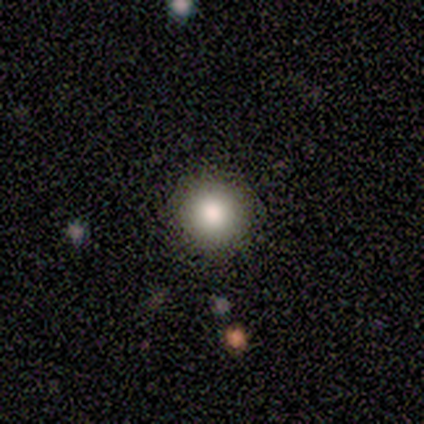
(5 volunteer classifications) smooth-or-featured: smooth: 100% | featured or disk: 0% | star or artifact: 0%
  how-rounded: round: 60% | in between: 40% | cigar-shaped: 0%
  merging: none: 60% | merger: 40% | minor disturbance: 0% | major disturbance: 0%